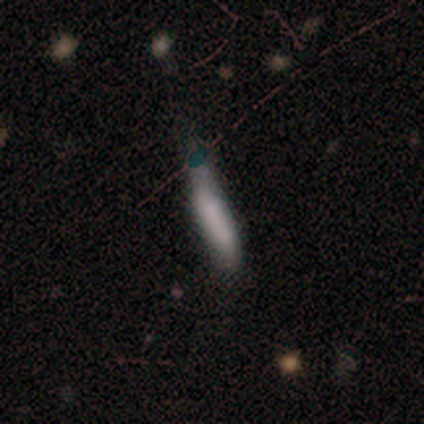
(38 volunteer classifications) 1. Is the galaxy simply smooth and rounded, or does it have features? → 74% smooth, 16% featured or disk, 11% star or artifact.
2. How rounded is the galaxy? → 89% cigar-shaped, 11% in between, 0% round.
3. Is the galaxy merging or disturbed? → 50% minor disturbance, 32% none, 15% major disturbance, 3% merger.